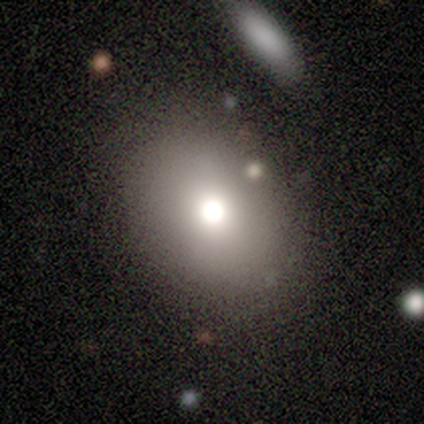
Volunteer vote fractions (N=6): This appears to be a smooth galaxy with no disk features (100%) that is in between round and cigar-shaped (83%). Merging: none (83%).